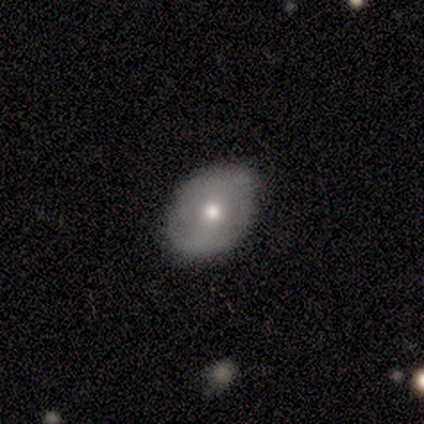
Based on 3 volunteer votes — A featured or disk galaxy (100%) with no bar (100%), 2 (100%) tight (50%, tied with medium) spiral arms (67%) and a small central bulge (67%). Merging: none (100%).